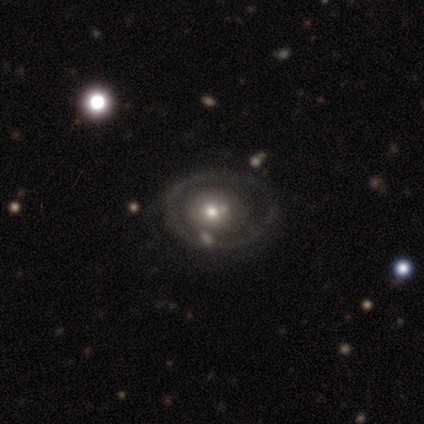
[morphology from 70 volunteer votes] Volunteers were most divided on "merging": none: 61%, minor disturbance: 23%, merger: 9%, major disturbance: 8%. More confident: edge-on disk — no (98%); bar — no (96%); spiral arms — no (88%); smooth or featured — featured or disk (71%); bulge size — moderate (59%).